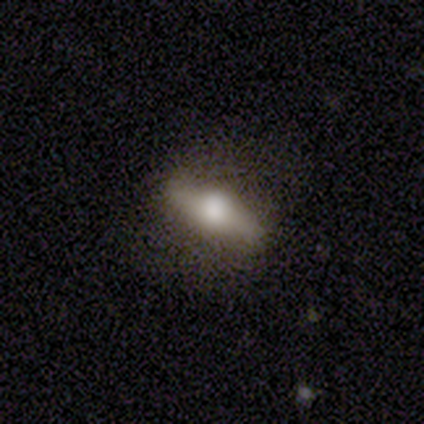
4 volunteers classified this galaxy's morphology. Smooth or featured? smooth (75%)
How rounded? in between (67%)
Merging? none (100%)